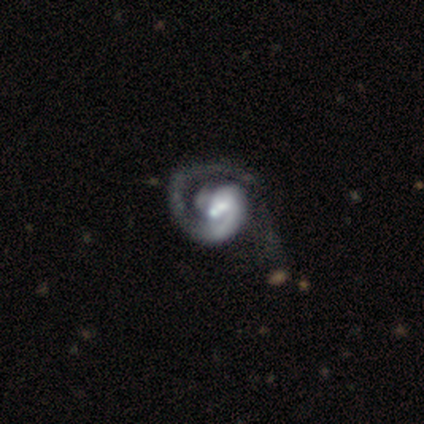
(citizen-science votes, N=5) This appears to be a featured or disk galaxy (100%) with no bar (60%), 1 (80%) tight (80%) spiral arms (100%) and no central bulge (40%). Merging: major disturbance (40%).